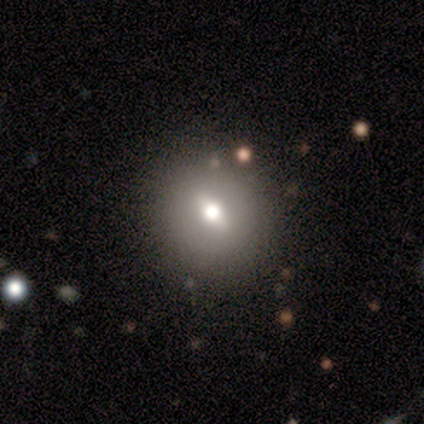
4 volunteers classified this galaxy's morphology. Smooth or featured? smooth (50%, tied with featured or disk)
How rounded? round (50%, tied with in between)
Merging? minor disturbance (50%)